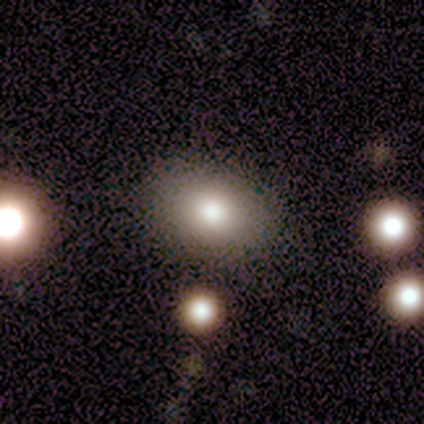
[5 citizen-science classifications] Smooth or featured? smooth (100%)
How rounded? in between (100%)
Merging? none (80%)